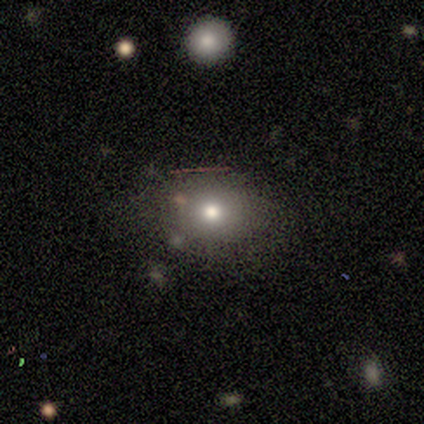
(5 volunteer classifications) Q: Smooth or featured?
A: smooth (60%); runner-up: featured or disk (20%)
Q: How rounded?
A: round (67%); runner-up: in between (33%)
Q: Merging?
A: none (50%); runner-up: minor disturbance (25%)